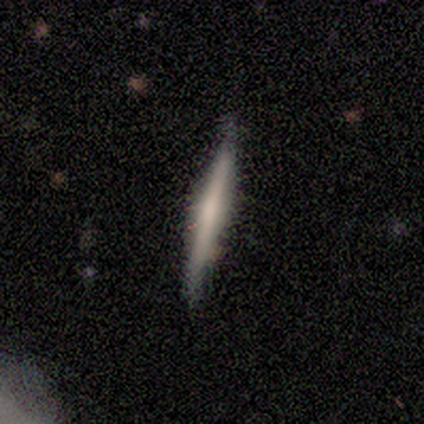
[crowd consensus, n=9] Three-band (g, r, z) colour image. It shows a featured or disk galaxy (67%) viewed edge-on (100%) with no central bulge (67%). Merging: none (100%).